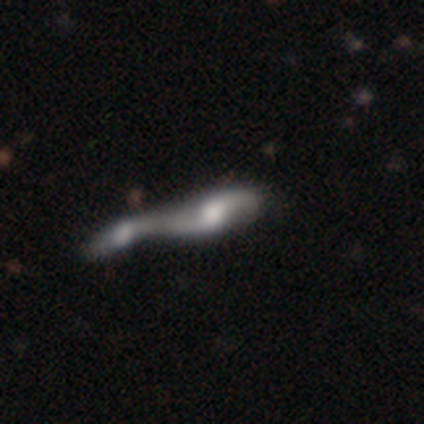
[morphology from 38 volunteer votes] Overall: featured or disk (61%; smooth 32%). Edge-on disk: no (100%). Bar: no (61%; weak 35%). Spiral arms: yes (87%). Spiral arm count: 2 (90%). Spiral winding: loose (90%). Bulge size: moderate (48%; small 26%). Merging: merger (100%).